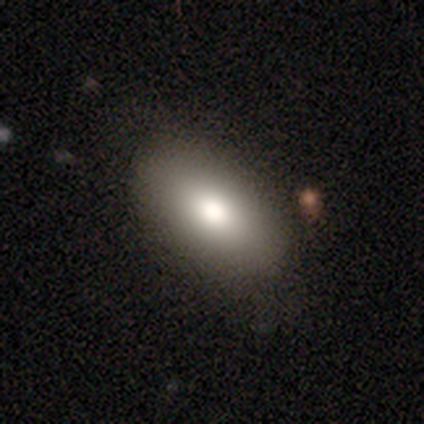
Smooth or featured?
  - smooth: 82% *
  - featured or disk: 12%
  - star or artifact: 6%
How rounded?
  - in between: 93% *
  - cigar-shaped: 4%
  - round: 3%
Merging?
  - none: 90% *
  - minor disturbance: 6%
  - major disturbance: 2%
  - merger: 1%